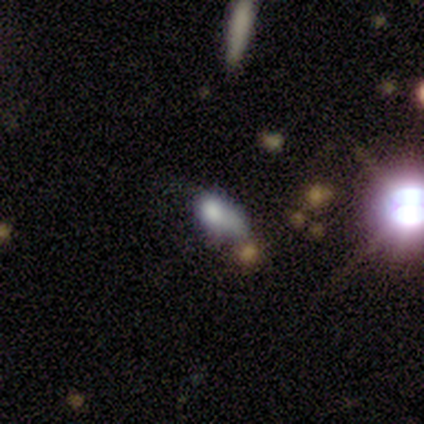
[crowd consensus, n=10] Smooth or featured?
  - smooth: 60% *
  - star or artifact: 30%
  - featured or disk: 10%
How rounded?
  - in between: 83% *
  - round: 17%
  - cigar-shaped: 0%
Merging?
  - major disturbance: 43% *
  - minor disturbance: 29%
  - merger: 29%
  - none: 0%